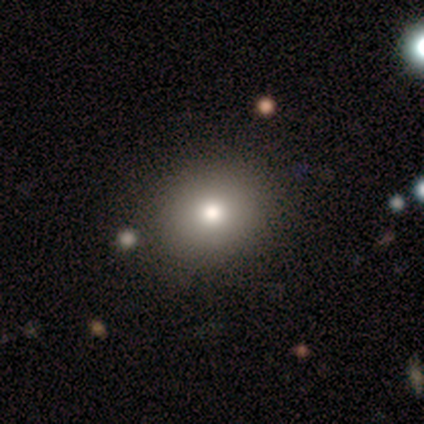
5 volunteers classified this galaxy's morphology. smooth_or_featured: smooth (p=1.00)
how_rounded: round (p=0.60) [alt: in between p=0.40]
merging: none (p=0.80) [alt: minor disturbance p=0.20]